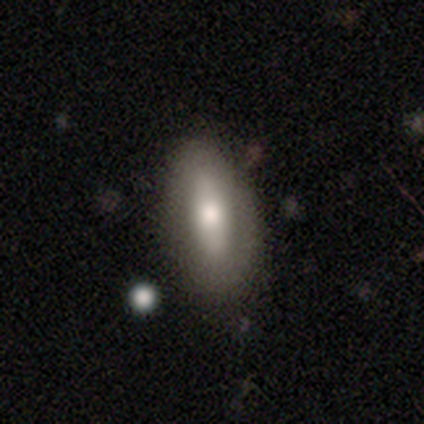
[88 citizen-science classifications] smooth_or_featured: smooth (p=0.56) [alt: featured or disk p=0.32]
how_rounded: in between (p=0.78) [alt: cigar-shaped p=0.20]
merging: none (p=0.77) [alt: minor disturbance p=0.16]